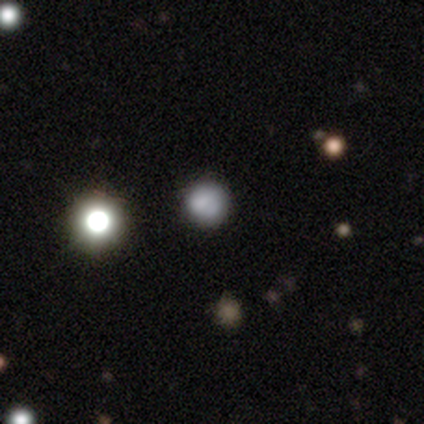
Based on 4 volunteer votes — Overall: star or artifact (50%; smooth 25%).